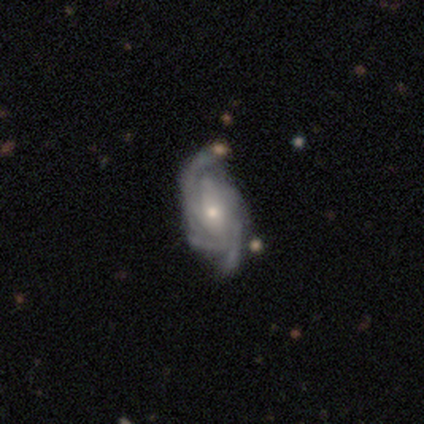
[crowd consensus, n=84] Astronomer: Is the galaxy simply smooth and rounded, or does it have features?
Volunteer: featured or disk — 87%.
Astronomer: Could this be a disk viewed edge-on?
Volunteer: no — 97%.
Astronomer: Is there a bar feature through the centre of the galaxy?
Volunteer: no — 48% (runner-up: weak, 38%).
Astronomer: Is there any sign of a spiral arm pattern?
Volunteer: yes — 97%.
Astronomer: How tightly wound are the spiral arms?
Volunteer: tight — 61%.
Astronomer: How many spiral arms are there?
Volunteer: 3 — 45% (runner-up: 4, 29%).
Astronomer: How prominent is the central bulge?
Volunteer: small — 65%.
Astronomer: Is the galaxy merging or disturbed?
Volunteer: none — 77%.